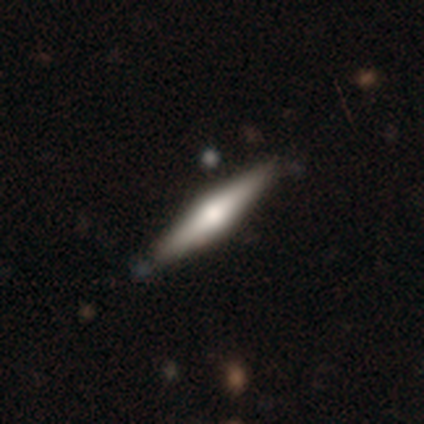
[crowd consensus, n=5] Volunteers were most divided on "merging": none: 60%, minor disturbance: 40%, major disturbance: 0%, merger: 0%. More confident: edge-on disk — yes (100%); edge-on bulge — rounded (100%); smooth or featured — featured or disk (80%).